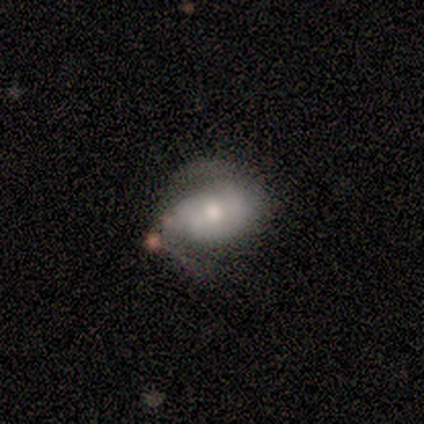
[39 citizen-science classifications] Overall: featured or disk (69%). Edge-on disk: no (100%). Bar: no (52%; weak 30%). Spiral arms: yes (93%). Spiral arm count: 2 (92%). Spiral winding: medium (56%; loose 28%). Bulge size: moderate (63%; small 30%). Merging: none (24%; major disturbance 19%).